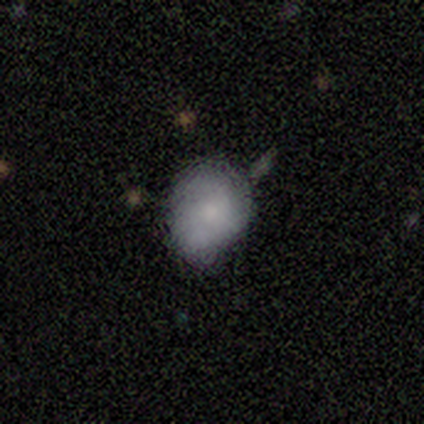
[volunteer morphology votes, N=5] type=smooth (60%); roundness=in between (100%); merging=minor disturbance (100%).